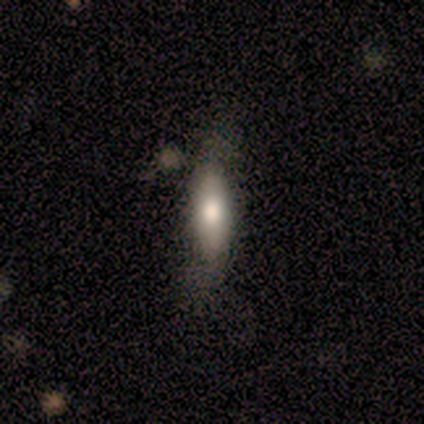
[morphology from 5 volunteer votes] smooth_or_featured: smooth (p=0.60) [alt: featured or disk p=0.40]
how_rounded: in between (p=0.67) [alt: cigar-shaped p=0.33]
merging: none (p=0.60) [alt: minor disturbance p=0.40]